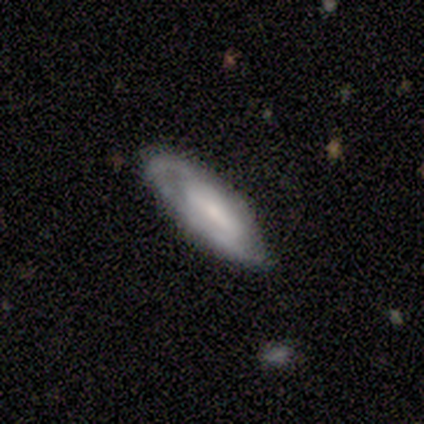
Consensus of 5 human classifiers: Overall: featured or disk (100%). Edge-on disk: no (100%). Bar: weak (60%; no 40%). Spiral arms: no (60%; yes 40%). Bulge size: small (60%; moderate 20%). Merging: none (80%).